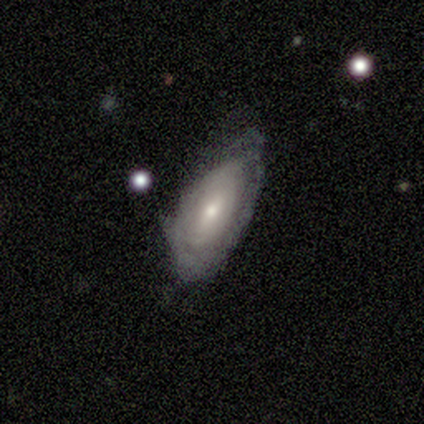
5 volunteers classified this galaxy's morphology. Overall: featured or disk (80%). Edge-on disk: no (75%). Bar: weak (67%; strong 33%). Spiral arms: yes (100%). Spiral arm count: can't tell (100%). Spiral winding: tight (100%). Bulge size: moderate (100%). Merging: none (60%; minor disturbance 20%).